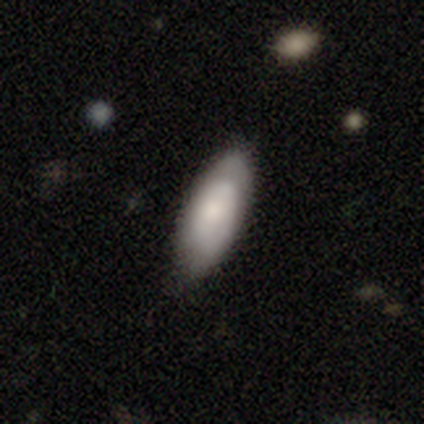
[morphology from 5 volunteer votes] smooth-or-featured: smooth: 100% | featured or disk: 0% | star or artifact: 0%
  how-rounded: in between: 100% | round: 0% | cigar-shaped: 0%
  merging: minor disturbance: 60% | none: 40% | major disturbance: 0% | merger: 0%